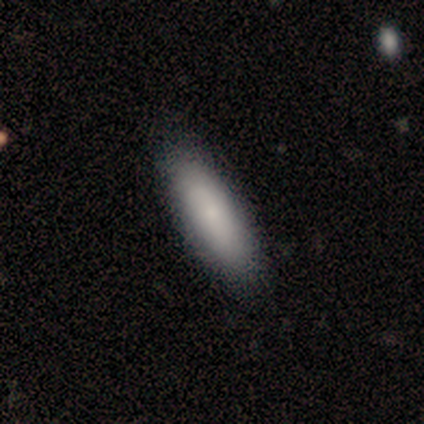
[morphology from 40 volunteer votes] smooth 78%, featured or disk 20%, star or artifact 2%. Down the decision tree: how rounded — in between (68%); merging — none (69%).